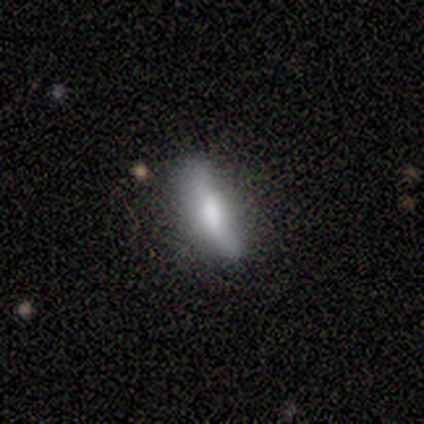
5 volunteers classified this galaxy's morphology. This appears to be a smooth galaxy with no disk features (40%, tied with featured or disk) that is cigar-shaped (100%). Merging: none (50%, tied with minor disturbance).